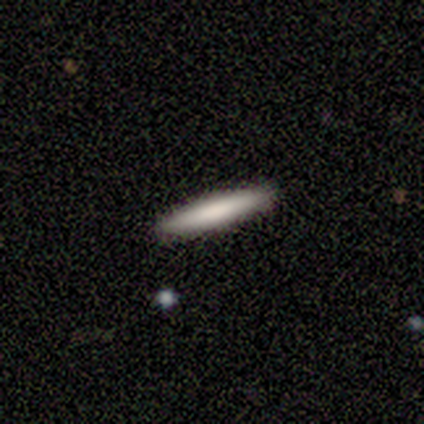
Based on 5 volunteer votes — Smooth or featured? 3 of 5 (60%) said smooth. How rounded? 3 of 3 (100%) said cigar-shaped. Merging? 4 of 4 (100%) said none.